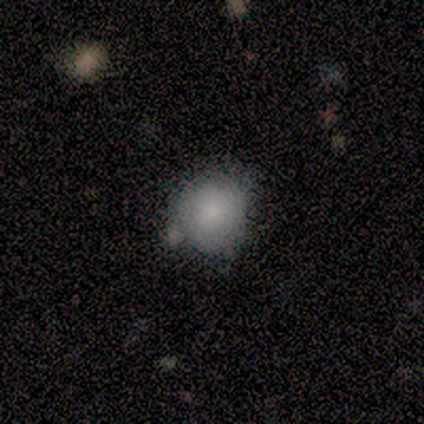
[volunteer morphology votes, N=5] Overall: smooth (80%). How rounded: round (50%, tied with in between). Merging: none (75%).